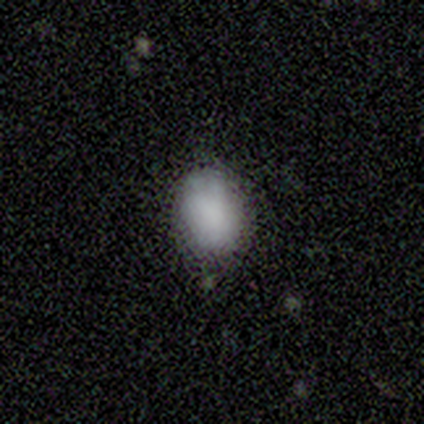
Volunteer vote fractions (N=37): Smooth or featured? smooth (100%)
How rounded? in between (78%)
Merging? none (73%)